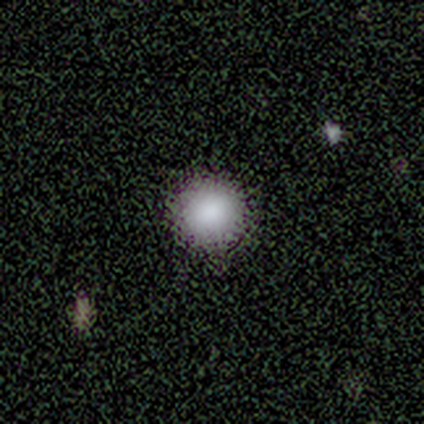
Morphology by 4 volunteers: Q: Smooth or featured?
A: smooth (100%)
Q: How rounded?
A: round (100%)
Q: Merging?
A: none (75%); runner-up: minor disturbance (25%)